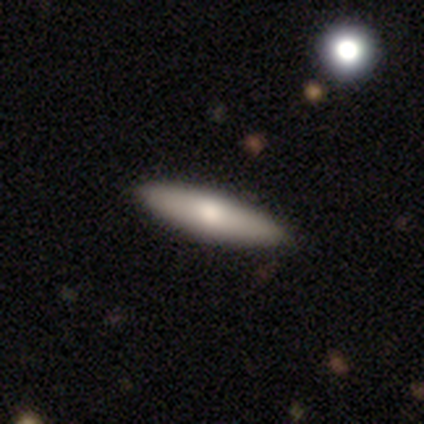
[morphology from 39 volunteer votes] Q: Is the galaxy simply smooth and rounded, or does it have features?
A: smooth — 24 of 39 (62%).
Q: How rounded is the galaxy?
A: cigar-shaped — 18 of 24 (75%).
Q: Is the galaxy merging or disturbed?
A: none — 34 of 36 (94%).